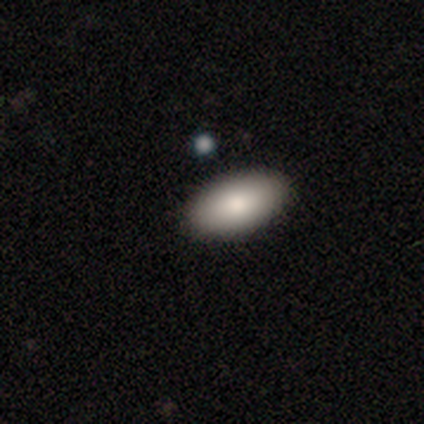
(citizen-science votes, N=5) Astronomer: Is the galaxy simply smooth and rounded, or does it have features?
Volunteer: smooth — 100%.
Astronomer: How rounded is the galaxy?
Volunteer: in between — 100%.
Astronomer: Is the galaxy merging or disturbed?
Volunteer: none — 100%.